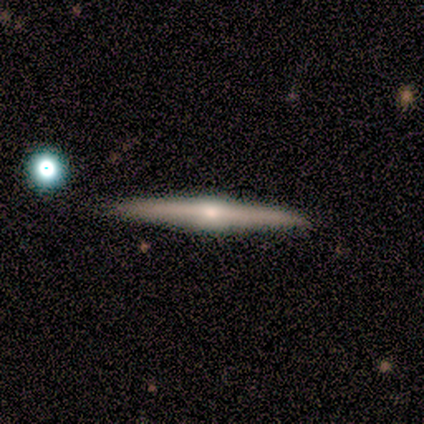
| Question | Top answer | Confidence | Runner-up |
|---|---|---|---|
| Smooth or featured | featured or disk | 100% | — |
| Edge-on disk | yes | 100% | — |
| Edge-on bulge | rounded | 100% | — |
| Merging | none | 100% | — |